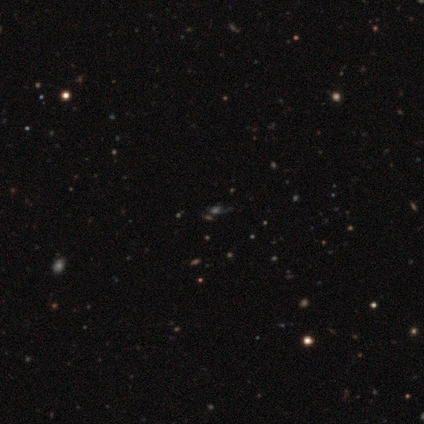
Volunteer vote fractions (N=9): Smooth or featured? 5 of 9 (56%) said smooth. How rounded? 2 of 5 (40%, tied with in between) said round. Merging? 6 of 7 (86%) said none.